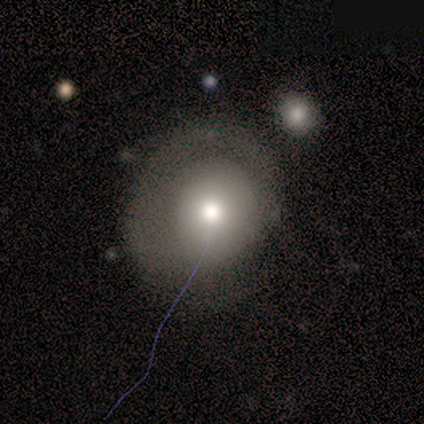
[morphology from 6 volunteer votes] A smooth galaxy with no disk features (100%) that is round (100%).

Vote fractions:
- Smooth or featured? smooth: 100% / featured or disk: 0% / star or artifact: 0%
- How rounded? round: 100% / in between: 0% / cigar-shaped: 0%
- Merging? none: 100% / minor disturbance: 0% / major disturbance: 0% / merger: 0%